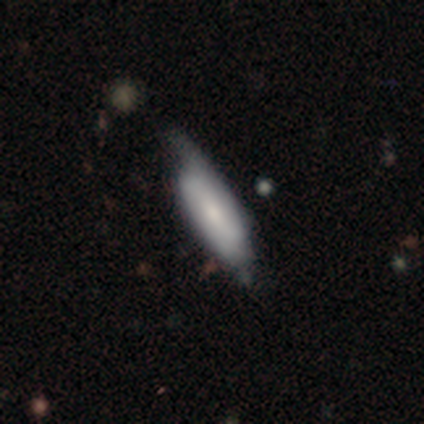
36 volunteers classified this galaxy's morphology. smooth 53%, featured or disk 47%, star or artifact 0%. Down the decision tree: how rounded — in between (63%); merging — none (47%).